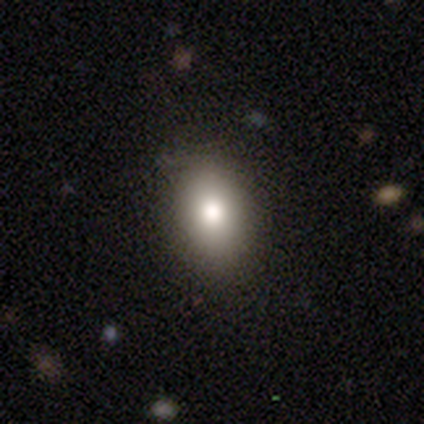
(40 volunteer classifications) smooth_or_featured: smooth (p=0.85) [alt: featured or disk p=0.15]
how_rounded: in between (p=0.82) [alt: round p=0.18]
merging: none (p=0.88) [alt: minor disturbance p=0.10]